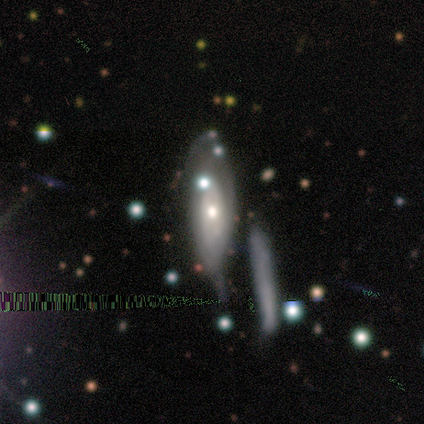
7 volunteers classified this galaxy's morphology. smooth-or-featured: smooth: 57% | star or artifact: 29% | featured or disk: 14%
  how-rounded: cigar-shaped: 75% | in between: 25% | round: 0%
  merging: none: 40% | minor disturbance: 20% | major disturbance: 20% | merger: 20%